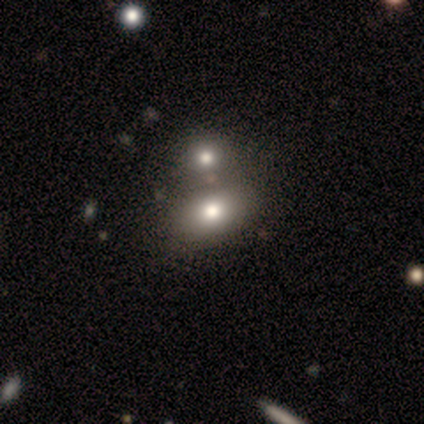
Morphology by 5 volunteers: A smooth galaxy with no disk features (80%) that is in between round and cigar-shaped (100%). Merging: none (80%).